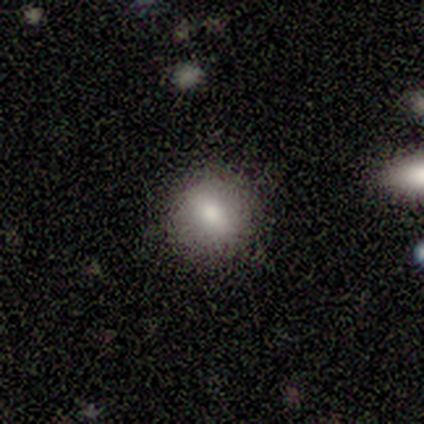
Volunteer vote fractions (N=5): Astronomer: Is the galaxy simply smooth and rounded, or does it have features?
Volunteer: smooth — 60%.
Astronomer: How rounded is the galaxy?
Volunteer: in between — 67%.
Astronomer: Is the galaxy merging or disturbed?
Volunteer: none — 75%.